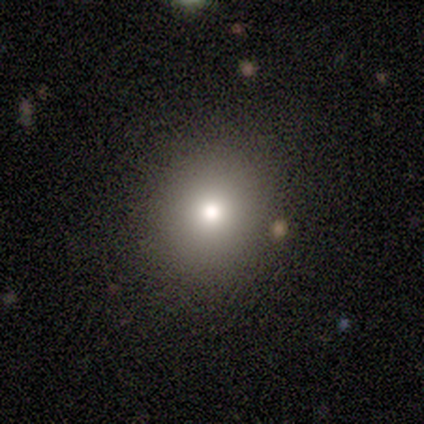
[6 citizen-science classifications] A smooth galaxy with no disk features (100%) that is round (100%).

Vote fractions:
- Smooth or featured? smooth: 100% / featured or disk: 0% / star or artifact: 0%
- How rounded? round: 100% / in between: 0% / cigar-shaped: 0%
- Merging? none: 100% / minor disturbance: 0% / major disturbance: 0% / merger: 0%